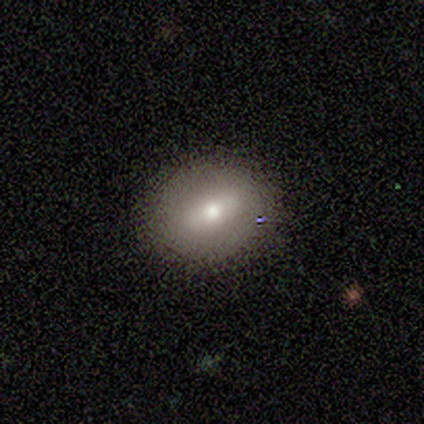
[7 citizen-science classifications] Smooth or featured: featured or disk — 57% (smooth — 29%)
Edge-on disk: no — 100%
Bar: strong — 50% (tied with weak — 50%)
Spiral arms: no — 100%
Bulge size: moderate — 75% (small — 25%)
Merging: none — 100%